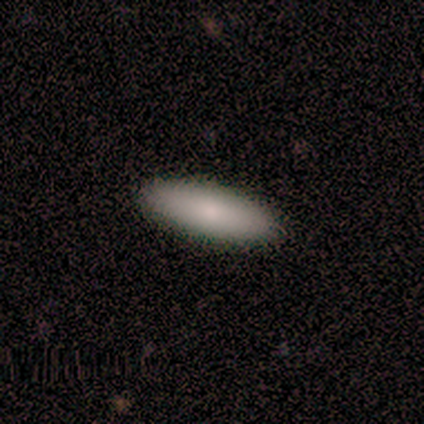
Smooth or featured? smooth (75%)
How rounded? in between (67%)
Merging? none (75%)